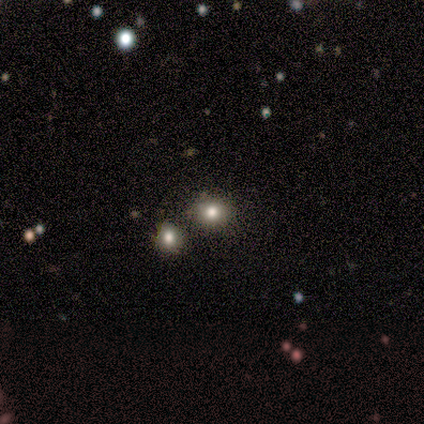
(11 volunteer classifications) smooth_or_featured: smooth (p=0.73) [alt: star or artifact p=0.27]
how_rounded: round (p=0.88) [alt: in between p=0.12]
merging: none (p=0.50) [alt: merger p=0.38]